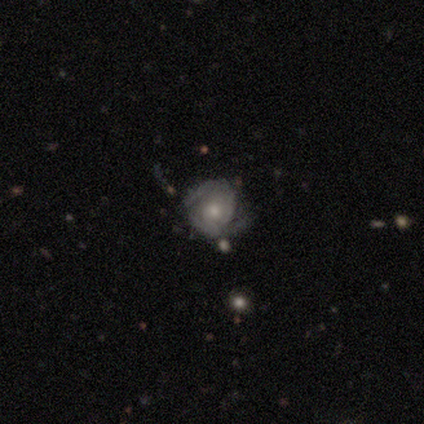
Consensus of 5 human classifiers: Volunteers were most divided on "bar" (2-way tie): weak: 50%, no: 50%, strong: 0%; "spiral arm count" (2-way tie): 2: 50%, can't tell: 50%, 1: 0%, 3: 0%, 4: 0%, more than 4: 0%. More confident: edge-on disk — no (100%); spiral arms — yes (100%); bulge size — small (100%); smooth or featured — featured or disk (80%); merging — none (80%); spiral winding — tight (50%).